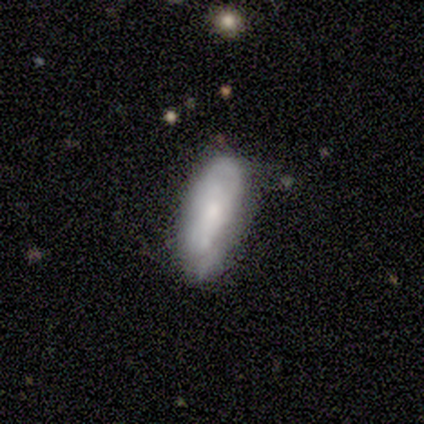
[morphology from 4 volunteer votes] This appears to be a smooth galaxy with no disk features (50%, tied with featured or disk) that is in between round and cigar-shaped (50%, tied with cigar-shaped). Merging: none (50%, tied with minor disturbance).